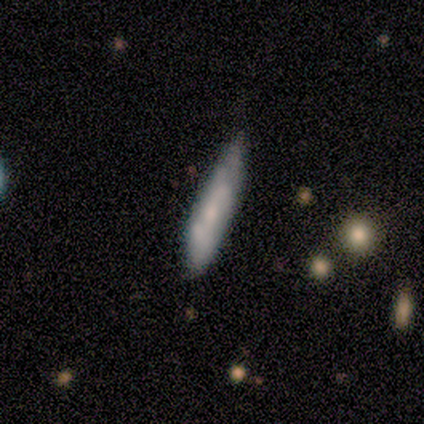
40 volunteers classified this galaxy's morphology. Volunteers were most divided on "smooth or featured": smooth: 57%, featured or disk: 42%, star or artifact: 0%. More confident: how rounded — cigar-shaped (91%); merging — none (57%).